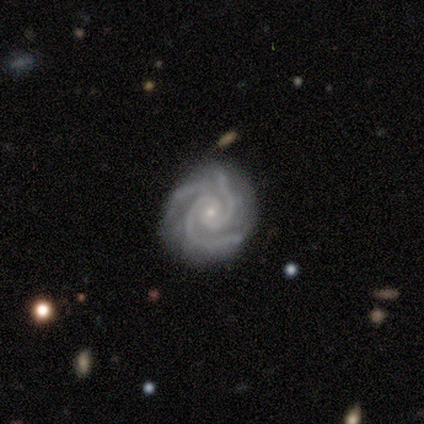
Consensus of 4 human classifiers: Overall: featured or disk (75%). Edge-on disk: no (100%). Bar: no (100%). Spiral arms: yes (100%). Spiral arm count: 3 (100%). Spiral winding: tight (67%; medium 33%). Bulge size: small (100%). Merging: none (100%).